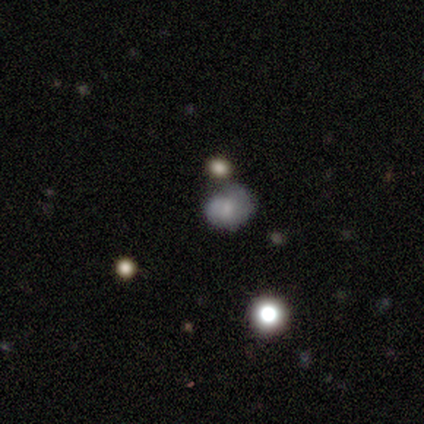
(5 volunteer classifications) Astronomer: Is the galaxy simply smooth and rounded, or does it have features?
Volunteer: featured or disk — 60% (runner-up: smooth, 40%).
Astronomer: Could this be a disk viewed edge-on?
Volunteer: no — 100%.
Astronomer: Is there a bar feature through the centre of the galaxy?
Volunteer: no — 100%.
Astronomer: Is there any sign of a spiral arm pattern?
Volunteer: no — 67%.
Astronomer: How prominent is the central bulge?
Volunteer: moderate — 33%, tied with small and none at 33%.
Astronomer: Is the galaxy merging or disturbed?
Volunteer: none — 80%.